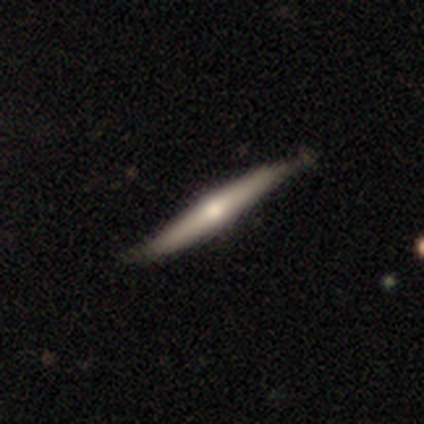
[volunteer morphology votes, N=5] Overall: featured or disk (60%; smooth 20%). Edge-on disk: yes (100%). Edge-on bulge: rounded (100%). Merging: none (75%).